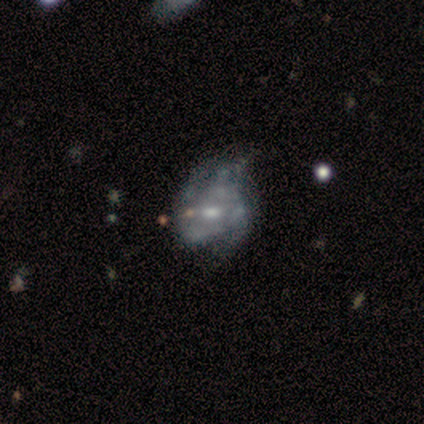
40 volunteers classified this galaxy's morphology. Q: Smooth or featured?
A: featured or disk (78%); runner-up: smooth (18%)
Q: Edge-on disk?
A: no (100%)
Q: Bar?
A: no (74%); runner-up: weak (23%)
Q: Spiral arms?
A: no (61%); runner-up: yes (39%)
Q: Bulge size?
A: moderate (42%); runner-up: small (39%)
Q: Merging?
A: major disturbance (26%); runner-up: minor disturbance (24%)